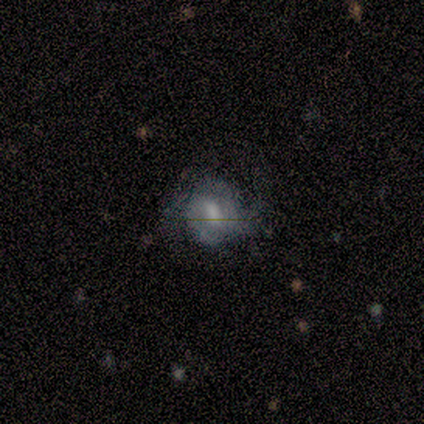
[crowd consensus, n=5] This appears to be a featured or disk galaxy (100%) with a weak bar (50%, tied with no), 2 (67%) medium (67%) spiral arms (75%) and a moderate central bulge (50%). Merging: none (40%, tied with major disturbance).